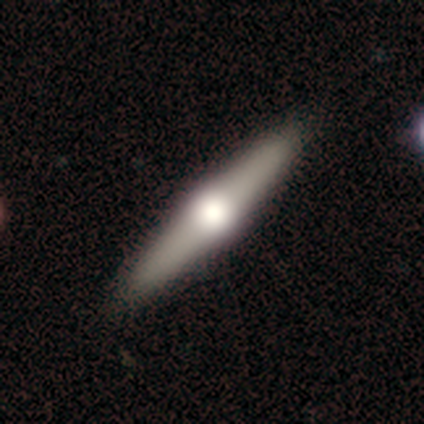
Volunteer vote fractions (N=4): A featured or disk galaxy (100%) viewed edge-on (75%) with a rounded central bulge (100%).

Vote fractions:
- Smooth or featured? featured or disk: 100% / smooth: 0% / star or artifact: 0%
- Edge-on disk? yes: 75% / no: 25%
- Edge-on bulge? rounded: 100% / boxy: 0% / none: 0%
- Merging? none: 75% / minor disturbance: 25% / major disturbance: 0% / merger: 0%